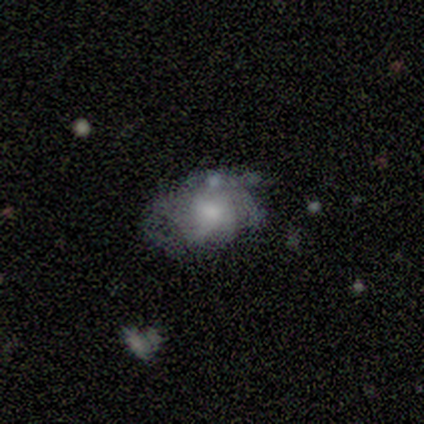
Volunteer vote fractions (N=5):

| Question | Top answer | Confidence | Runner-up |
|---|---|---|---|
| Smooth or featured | featured or disk | 100% | — |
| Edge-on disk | no | 100% | — |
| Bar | no | 100% | — |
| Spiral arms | yes | 80% | no (20%) |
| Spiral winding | tight | 75% | medium (25%) |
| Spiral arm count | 3 | 50% | tied: can't tell (50%) |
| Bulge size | moderate | 60% | large (20%) |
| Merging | none | 100% | — |